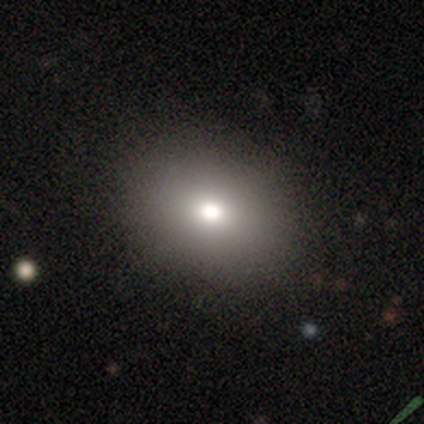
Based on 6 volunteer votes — This is likely a smooth galaxy (67%). How rounded: possibly round (50%, tied with in between). Merging: clearly none (100%).